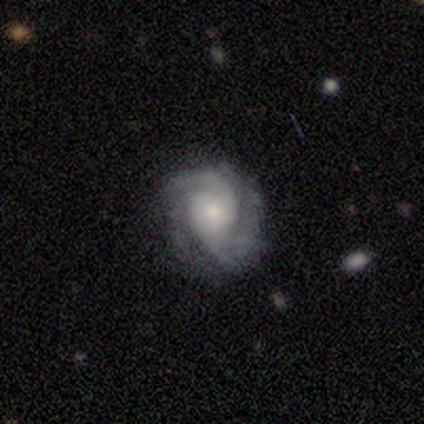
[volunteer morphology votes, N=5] This appears to be a featured or disk galaxy (100%) with no bar (80%), 2 (40%, tied with can't tell) medium (40%, tied with loose) spiral arms (100%) and a small central bulge (80%). Merging: none (60%).